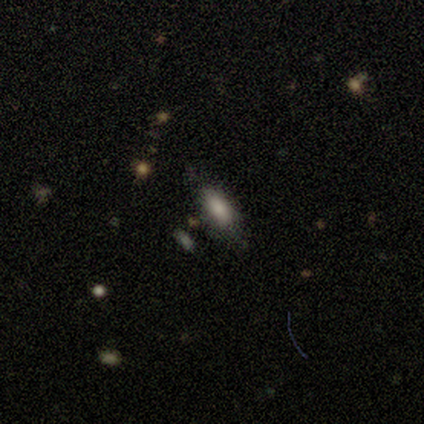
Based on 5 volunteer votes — Volunteers were most divided on "how rounded": in between: 75%, cigar-shaped: 25%, round: 0%. More confident: smooth or featured — smooth (80%); merging — none (75%).